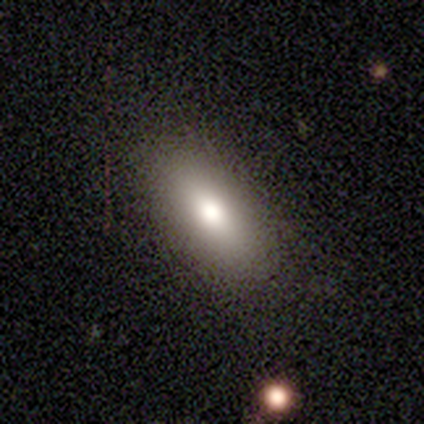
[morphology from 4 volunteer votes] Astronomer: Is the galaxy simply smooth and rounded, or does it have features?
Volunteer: smooth — 75%.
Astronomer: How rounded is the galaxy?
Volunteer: in between — 100%.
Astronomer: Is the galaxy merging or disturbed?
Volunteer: none — 75%.